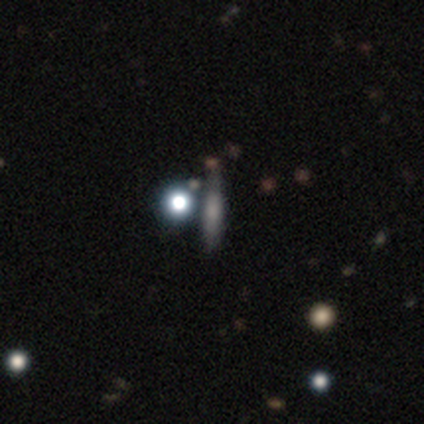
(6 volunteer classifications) Smooth or featured? 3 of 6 (50%) said smooth. How rounded? 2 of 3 (67%) said cigar-shaped. Merging? 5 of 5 (100%) said none.